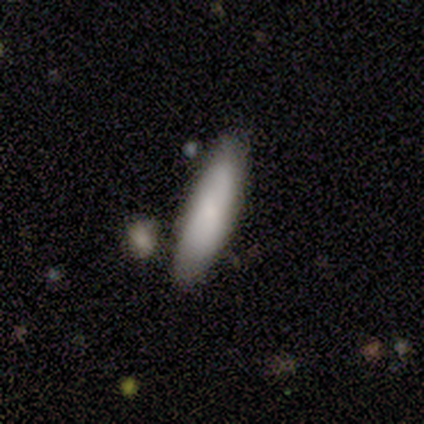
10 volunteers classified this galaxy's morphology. This appears to be a smooth galaxy with no disk features (80%) that is cigar-shaped (62%). Merging: none (80%).